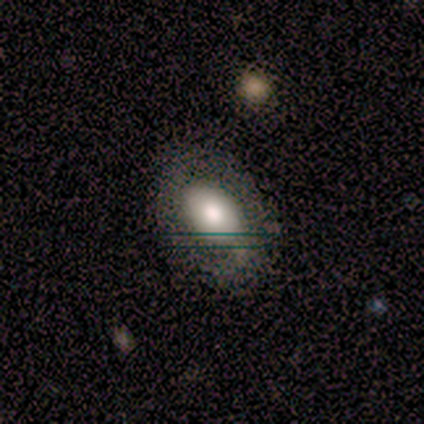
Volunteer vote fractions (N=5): Overall: featured or disk (60%; smooth 40%). Edge-on disk: no (100%). Bar: no (67%; weak 33%). Spiral arms: yes (67%; no 33%). Spiral arm count: 1 (50%, tied with 2). Spiral winding: medium (50%, tied with loose). Bulge size: moderate (67%; small 33%). Merging: none (80%).